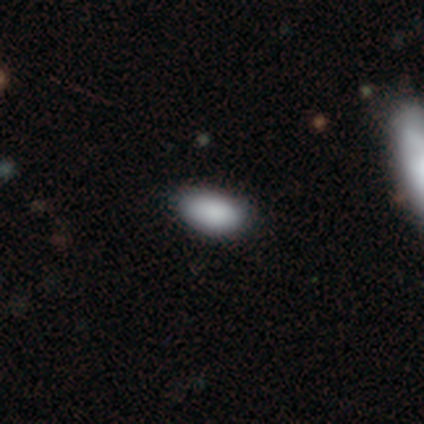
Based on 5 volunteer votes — Overall: smooth (80%). How rounded: in between (100%). Merging: none (100%).